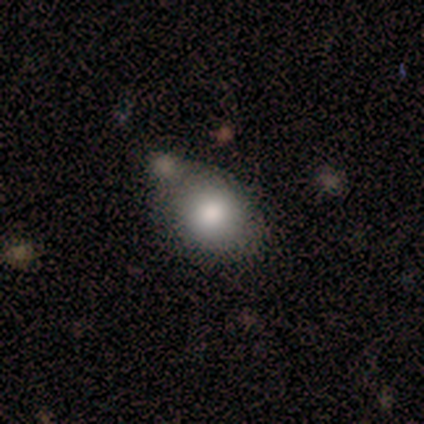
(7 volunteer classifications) smooth_or_featured: smooth (p=0.86) [alt: featured or disk p=0.14]
how_rounded: round (p=0.83) [alt: in between p=0.17]
merging: none (p=0.57) [alt: merger p=0.43]